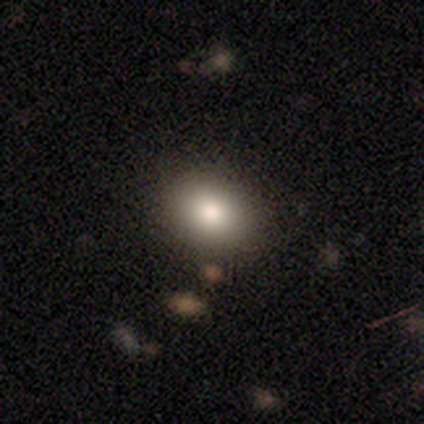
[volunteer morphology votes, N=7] This is clearly a smooth galaxy (100%). How rounded: clearly in between (86%). Merging: clearly none (100%).